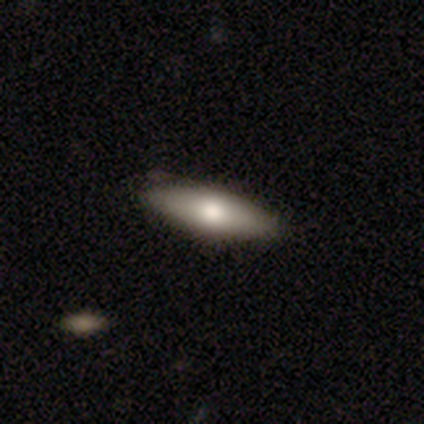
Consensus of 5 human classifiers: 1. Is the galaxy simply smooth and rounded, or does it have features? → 100% smooth, 0% featured or disk, 0% star or artifact.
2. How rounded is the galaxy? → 80% cigar-shaped, 20% in between, 0% round.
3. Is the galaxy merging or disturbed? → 100% none, 0% minor disturbance, 0% major disturbance, 0% merger.